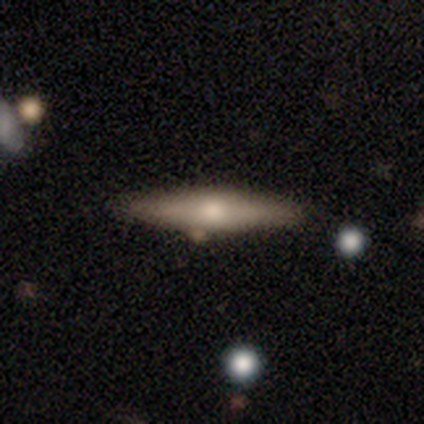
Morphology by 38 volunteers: Smooth or featured? smooth (47%)
How rounded? cigar-shaped (89%)
Merging? none (88%)